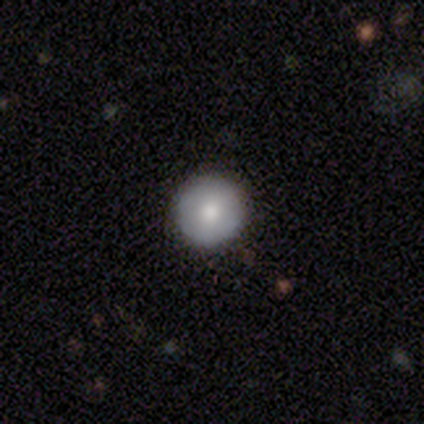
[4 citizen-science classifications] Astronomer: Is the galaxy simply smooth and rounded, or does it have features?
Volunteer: smooth — 100%.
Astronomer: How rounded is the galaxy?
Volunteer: round — 100%.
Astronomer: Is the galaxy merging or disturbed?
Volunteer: none — 100%.